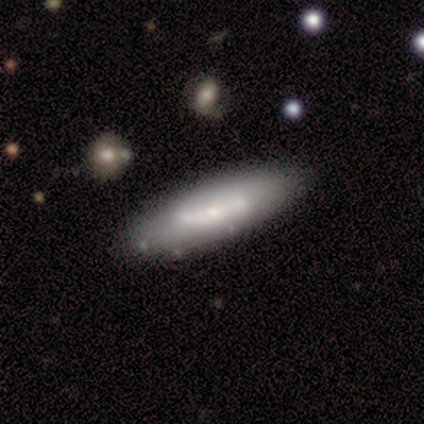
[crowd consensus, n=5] A featured or disk galaxy (60%) with a strong bar (100%), no spiral arms (100%) and a small central bulge (67%). Merging: none (80%).